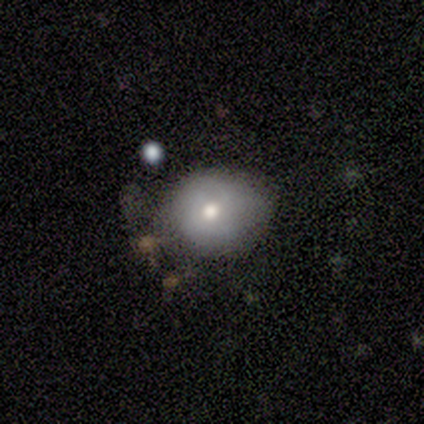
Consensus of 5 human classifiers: A smooth galaxy with no disk features (60%) that is round (67%). Merging: none (40%, tied with major disturbance).